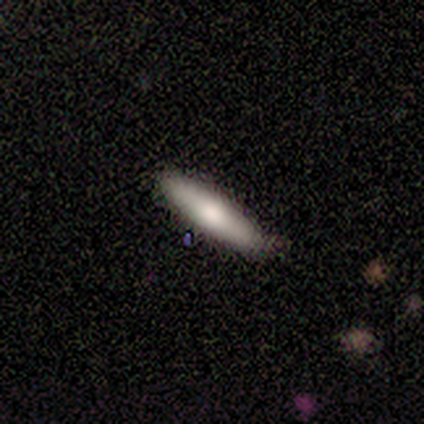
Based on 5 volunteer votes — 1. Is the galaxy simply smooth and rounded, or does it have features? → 60% smooth, 40% featured or disk, 0% star or artifact.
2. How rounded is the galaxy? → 100% cigar-shaped, 0% round, 0% in between.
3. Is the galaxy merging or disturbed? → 100% none, 0% minor disturbance, 0% major disturbance, 0% merger.